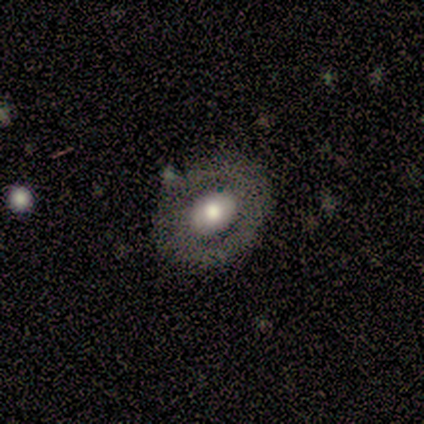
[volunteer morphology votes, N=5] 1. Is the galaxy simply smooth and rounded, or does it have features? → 80% featured or disk, 20% smooth, 0% star or artifact.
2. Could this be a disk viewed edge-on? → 100% no, 0% yes.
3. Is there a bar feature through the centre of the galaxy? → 75% no, 25% strong, 0% weak.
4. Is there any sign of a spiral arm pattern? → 100% no, 0% yes.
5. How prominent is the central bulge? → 75% large, 25% moderate, 0% dominant, 0% small, 0% none.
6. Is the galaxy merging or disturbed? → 100% none, 0% minor disturbance, 0% major disturbance, 0% merger.